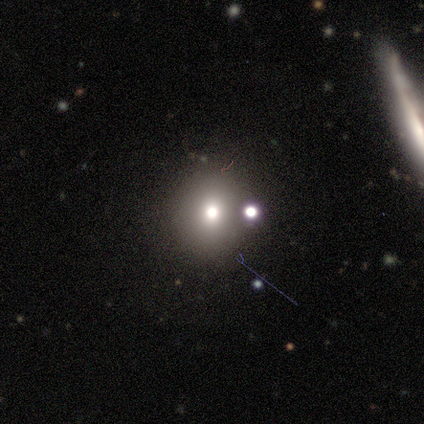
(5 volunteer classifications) This appears to be a smooth galaxy with no disk features (40%, tied with featured or disk) that is round (50%, tied with cigar-shaped). Merging: none (75%).